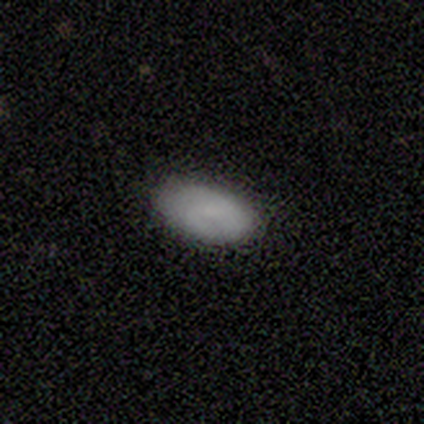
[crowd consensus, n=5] This is likely a featured or disk galaxy (60%). It is clearly not viewed edge-on (100%). Bar: likely weak (67%). Spiral arm pattern: likely no (67%). Central bulge: likely small (67%). Merging: clearly none (80%).